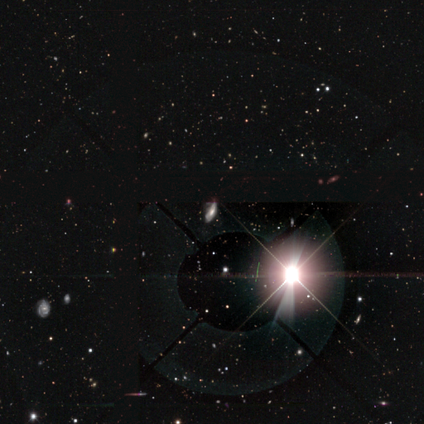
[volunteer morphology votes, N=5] A star or artifact, not a galaxy (80%).

Vote fractions:
- Smooth or featured? star or artifact: 80% / featured or disk: 20% / smooth: 0%